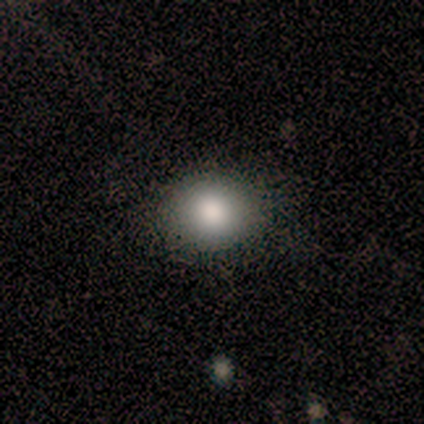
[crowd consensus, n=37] This is likely a smooth galaxy (73%). How rounded: likely round (67%). Merging: clearly none (93%).